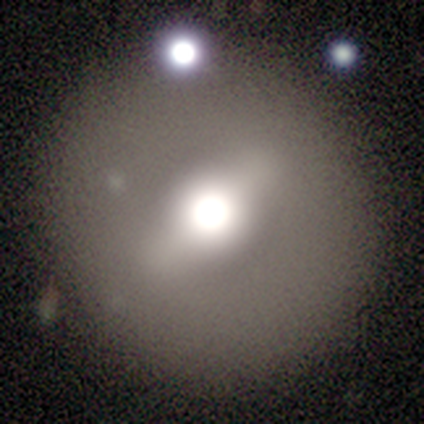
Smooth or featured?
  - smooth: 100% *
  - featured or disk: 0%
  - star or artifact: 0%
How rounded?
  - in between: 100% *
  - round: 0%
  - cigar-shaped: 0%
Merging?
  - none: 100% *
  - minor disturbance: 0%
  - major disturbance: 0%
  - merger: 0%